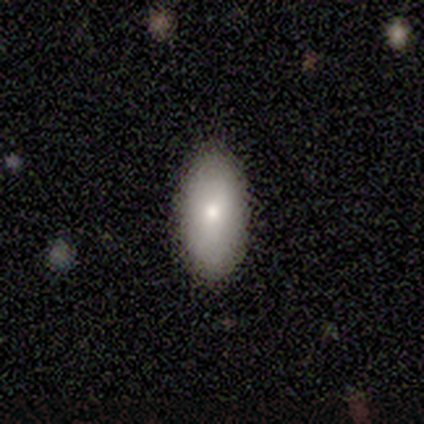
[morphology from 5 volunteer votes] Smooth or featured? 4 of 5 (80%) said smooth. How rounded? 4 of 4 (100%) said in between. Merging? 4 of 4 (100%) said none.